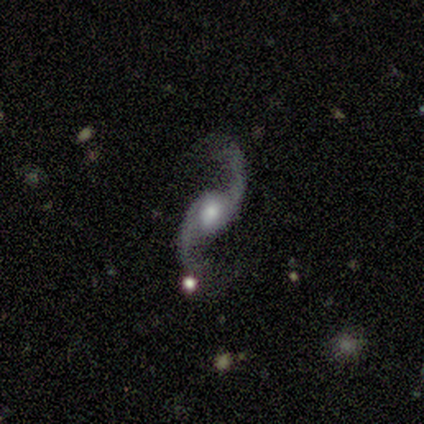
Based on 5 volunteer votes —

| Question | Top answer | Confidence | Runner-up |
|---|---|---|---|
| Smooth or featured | featured or disk | 100% | — |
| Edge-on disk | no | 100% | — |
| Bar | no | 80% | weak (20%) |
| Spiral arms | yes | 100% | — |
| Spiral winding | loose | 100% | — |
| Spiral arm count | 2 | 100% | — |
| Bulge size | large | 80% | moderate (20%) |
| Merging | none | 80% | minor disturbance (20%) |